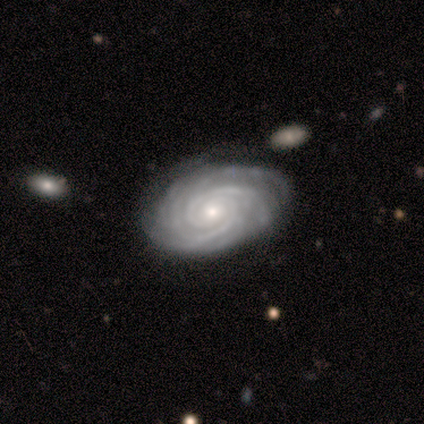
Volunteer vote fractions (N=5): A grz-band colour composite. It shows a featured or disk galaxy (100%) with no bar (100%), 2 (40%) tight (100%) spiral arms (100%) and a moderate central bulge (60%). Merging: none (80%).